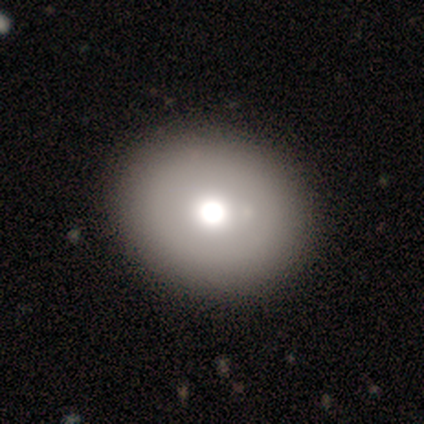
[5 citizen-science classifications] Volunteers were most divided on "how rounded" (2-way tie): round: 50%, in between: 50%, cigar-shaped: 0%. More confident: merging — none (100%); smooth or featured — smooth (80%).